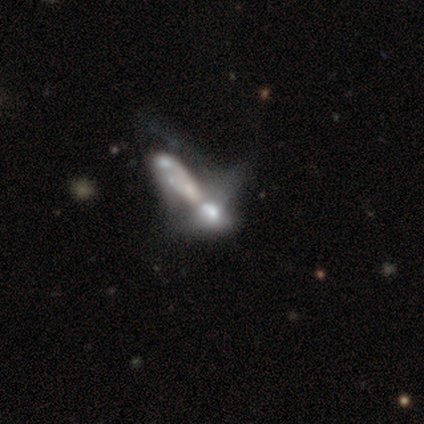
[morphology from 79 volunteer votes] A featured or disk galaxy (67%) with no bar (86%), no spiral arms (72%) and a moderate central bulge (30%, tied with none). Merging: merger (63%).